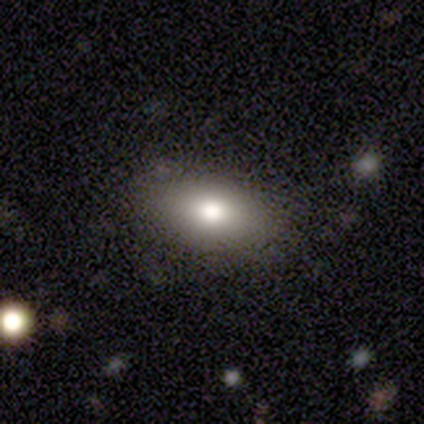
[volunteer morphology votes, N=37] Smooth or featured? smooth (84%)
How rounded? in between (90%)
Merging? none (90%)